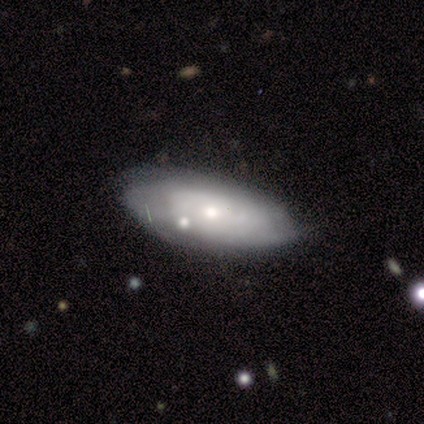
Smooth or featured?
  - featured or disk: 75% *
  - smooth: 25%
  - star or artifact: 0%
Edge-on disk?
  - no: 100% *
  - yes: 0%
Bar?
  - no: 67% *
  - weak: 33%
  - strong: 0%
Spiral arms?
  - no: 67% *
  - yes: 33%
Bulge size?
  - small: 100% *
  - dominant: 0%
  - large: 0%
  - moderate: 0%
  - none: 0%
Merging?
  - minor disturbance: 100% *
  - none: 0%
  - major disturbance: 0%
  - merger: 0%